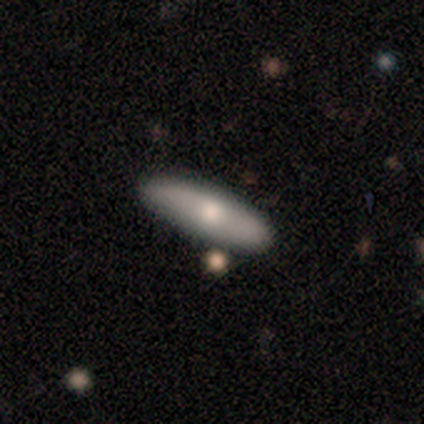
smooth 75%, featured or disk 17%, star or artifact 8%. Down the decision tree: how rounded — cigar-shaped (78%); merging — none (82%).